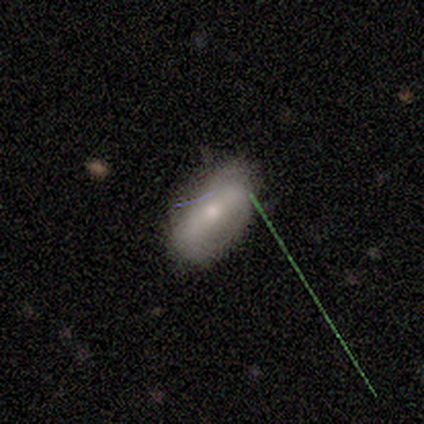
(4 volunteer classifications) Morphology: type=featured or disk (50%); edge-on=no (100%); bar=weak (100%); spiral arms=yes (100%); winding=loose (100%); arm count=2 (100%); bulge=moderate (50%, tied with small); merging=none (100%).